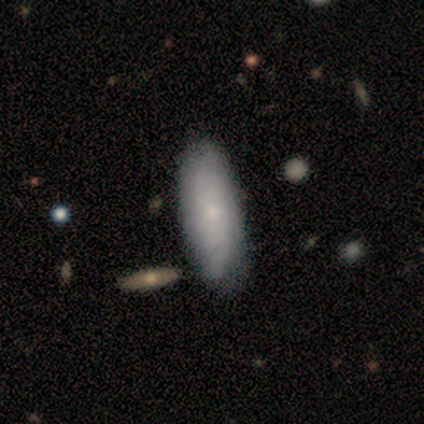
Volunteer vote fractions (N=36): Smooth or featured?
  - smooth: 69% *
  - featured or disk: 31%
  - star or artifact: 0%
How rounded?
  - in between: 80% *
  - cigar-shaped: 20%
  - round: 0%
Merging?
  - none: 44% *
  - minor disturbance: 19%
  - major disturbance: 6%
  - merger: 3%